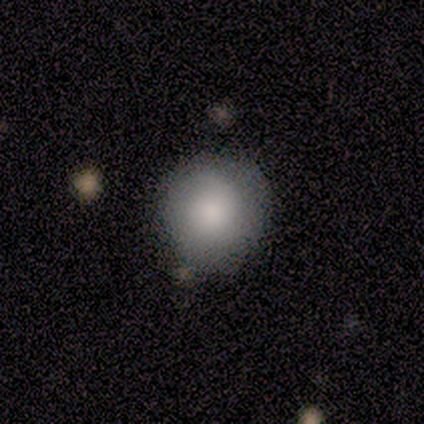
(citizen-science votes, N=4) Smooth or featured?
  - smooth: 75% *
  - featured or disk: 25%
  - star or artifact: 0%
How rounded?
  - round: 67% *
  - in between: 33%
  - cigar-shaped: 0%
Merging?
  - none: 75% *
  - minor disturbance: 25%
  - major disturbance: 0%
  - merger: 0%